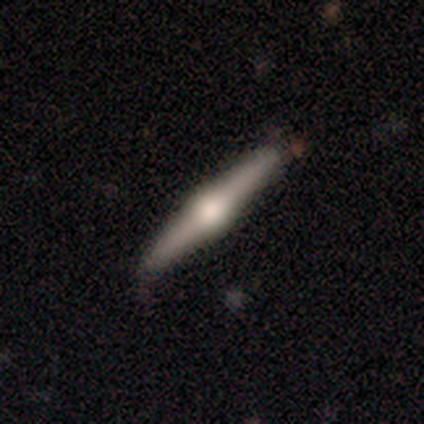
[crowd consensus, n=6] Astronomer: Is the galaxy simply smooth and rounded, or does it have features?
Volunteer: featured or disk — 100%.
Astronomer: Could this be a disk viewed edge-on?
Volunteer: yes — 100%.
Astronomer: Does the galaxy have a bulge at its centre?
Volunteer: rounded — 83%.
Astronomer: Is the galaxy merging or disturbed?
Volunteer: none — 100%.